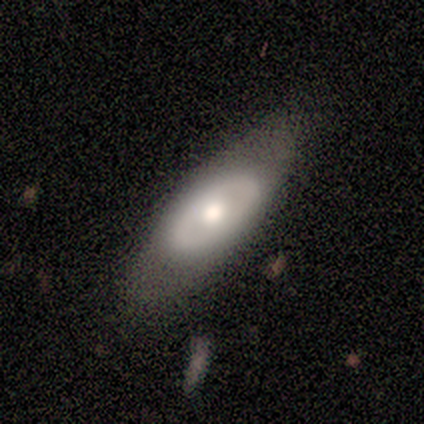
smooth_or_featured: featured or disk (p=0.60) [alt: smooth p=0.40]
disk_edge_on: no (p=1.00)
bar: no (p=1.00)
has_spiral_arms: no (p=1.00)
bulge_size: moderate (p=1.00)
merging: none (p=0.60) [alt: minor disturbance p=0.40]